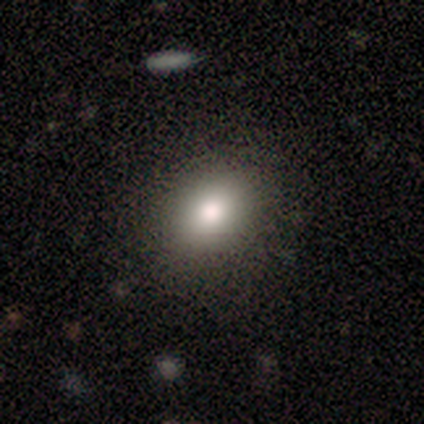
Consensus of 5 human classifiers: A smooth galaxy with no disk features (80%) that is round (50%, tied with in between).

Vote fractions:
- Smooth or featured? smooth: 80% / star or artifact: 20% / featured or disk: 0%
- How rounded? round: 50% (tied) / in between: 50% (tied) / cigar-shaped: 0%
- Merging? none: 100% / minor disturbance: 0% / major disturbance: 0% / merger: 0%